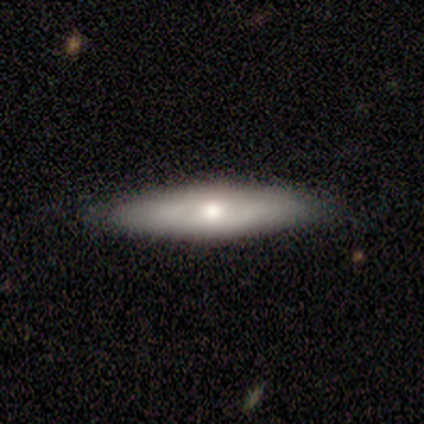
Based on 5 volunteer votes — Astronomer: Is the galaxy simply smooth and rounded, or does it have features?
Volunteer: smooth — 60% (runner-up: featured or disk, 40%).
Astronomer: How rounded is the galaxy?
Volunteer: cigar-shaped — 67%.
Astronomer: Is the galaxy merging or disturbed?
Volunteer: none — 80%.